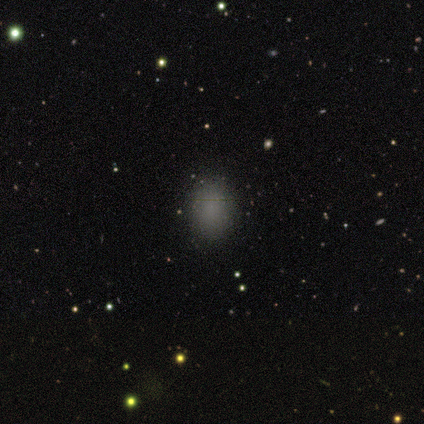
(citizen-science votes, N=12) Overall: smooth (67%). How rounded: in between (75%). Merging: none (100%).